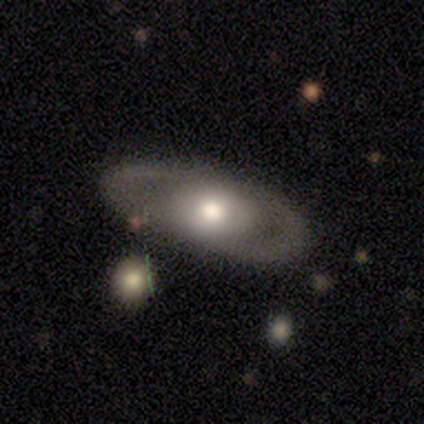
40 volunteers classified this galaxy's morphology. Q: Smooth or featured?
A: featured or disk (57%); runner-up: smooth (40%)
Q: Edge-on disk?
A: no (96%); runner-up: yes (4%)
Q: Bar?
A: no (91%); runner-up: strong (5%)
Q: Spiral arms?
A: no (68%); runner-up: yes (32%)
Q: Bulge size?
A: moderate (55%); runner-up: large (36%)
Q: Merging?
A: none (54%); runner-up: minor disturbance (8%)